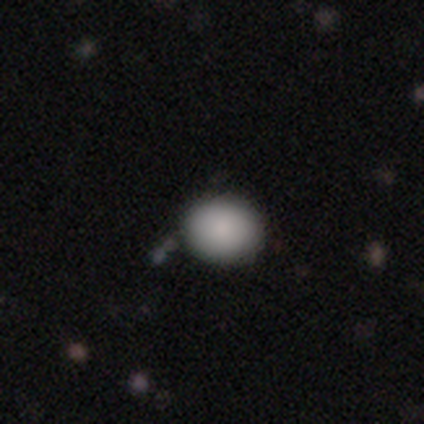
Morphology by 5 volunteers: Smooth or featured?
  - smooth: 100% *
  - featured or disk: 0%
  - star or artifact: 0%
How rounded?
  - round: 100% *
  - in between: 0%
  - cigar-shaped: 0%
Merging?
  - none: 100% *
  - minor disturbance: 0%
  - major disturbance: 0%
  - merger: 0%